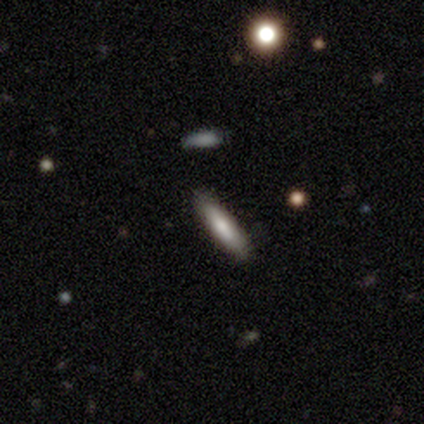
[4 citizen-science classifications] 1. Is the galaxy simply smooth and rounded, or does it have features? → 50% smooth (tied), 50% featured or disk (tied), 0% star or artifact.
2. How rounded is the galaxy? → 50% in between (tied), 50% cigar-shaped (tied), 0% round.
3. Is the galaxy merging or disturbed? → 100% none, 0% minor disturbance, 0% major disturbance, 0% merger.